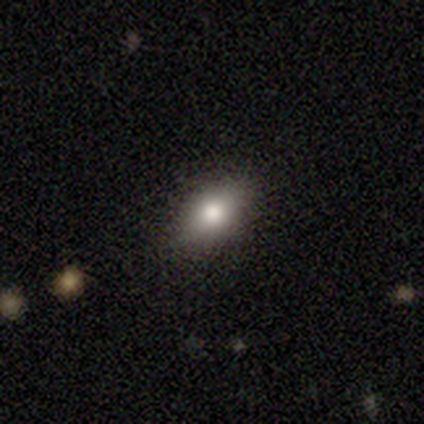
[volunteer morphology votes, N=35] Smooth or featured?
  - smooth: 71% *
  - star or artifact: 20%
  - featured or disk: 9%
How rounded?
  - in between: 60% *
  - round: 28%
  - cigar-shaped: 12%
Merging?
  - none: 86% *
  - minor disturbance: 7%
  - major disturbance: 7%
  - merger: 0%